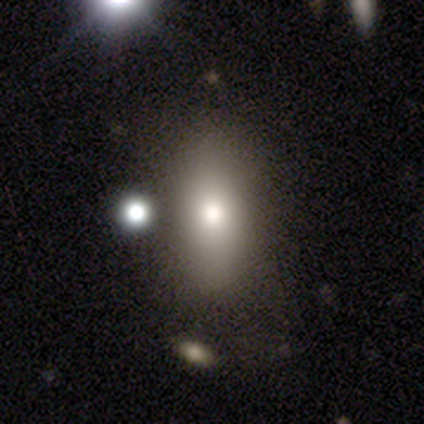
smooth 100%, featured or disk 0%, star or artifact 0%. Down the decision tree: how rounded — cigar-shaped (67%); merging — minor disturbance (67%).